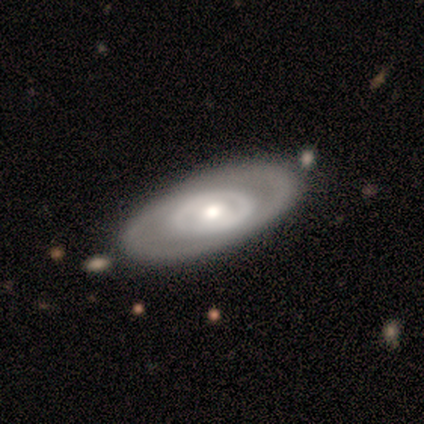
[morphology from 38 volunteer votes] Smooth or featured? featured or disk (82%)
Edge-on disk? no (84%)
Bar? no (85%)
Spiral arms? no (62%)
Bulge size? moderate (69%)
Merging? none (71%)